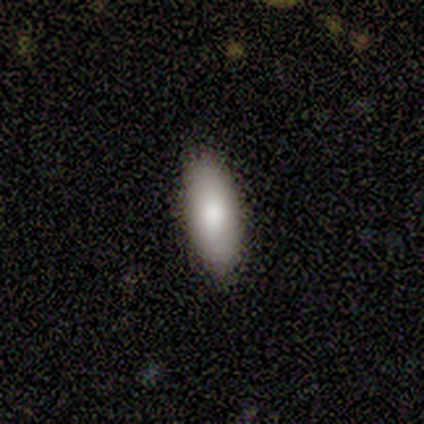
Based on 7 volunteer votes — Q: Smooth or featured?
A: smooth (86%); runner-up: featured or disk (14%)
Q: How rounded?
A: in between (100%)
Q: Merging?
A: none (86%); runner-up: minor disturbance (14%)